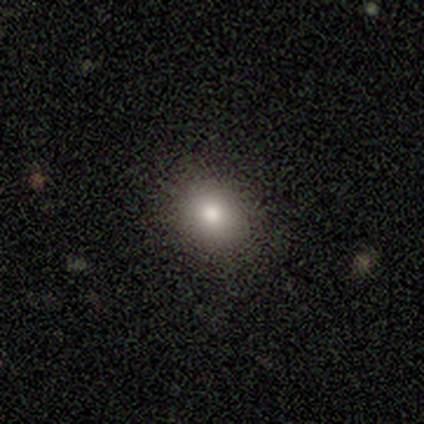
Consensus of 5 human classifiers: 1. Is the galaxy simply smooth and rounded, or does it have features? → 80% smooth, 20% featured or disk, 0% star or artifact.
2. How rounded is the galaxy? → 75% round, 25% in between, 0% cigar-shaped.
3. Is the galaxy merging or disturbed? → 100% none, 0% minor disturbance, 0% major disturbance, 0% merger.